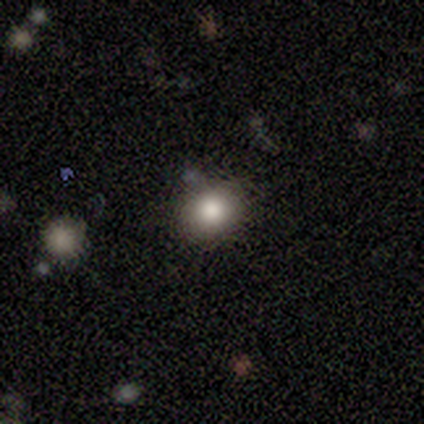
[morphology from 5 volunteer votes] This appears to be a smooth galaxy with no disk features (60%) that is in between round and cigar-shaped (67%). Merging: none (50%, tied with major disturbance).